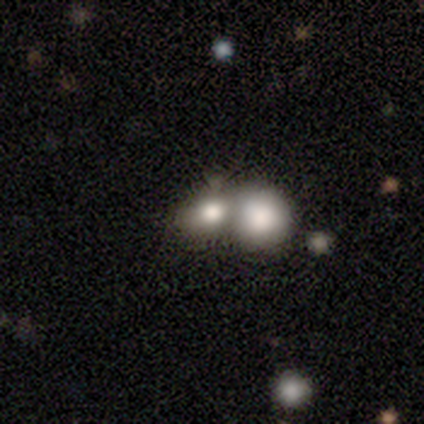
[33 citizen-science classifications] smooth_or_featured: smooth (p=0.82) [alt: featured or disk p=0.15]
how_rounded: round (p=0.59) [alt: in between p=0.41]
merging: merger (p=0.75)